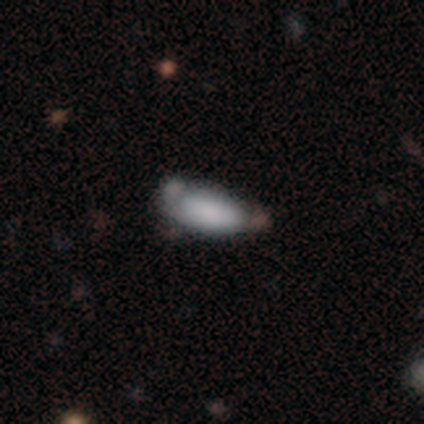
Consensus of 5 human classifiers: smooth-or-featured: smooth: 80% | featured or disk: 20% | star or artifact: 0%
  how-rounded: in between: 75% | cigar-shaped: 25% | round: 0%
  merging: none: 40% (tied) | major disturbance: 40% (tied) | minor disturbance: 20% | merger: 0%